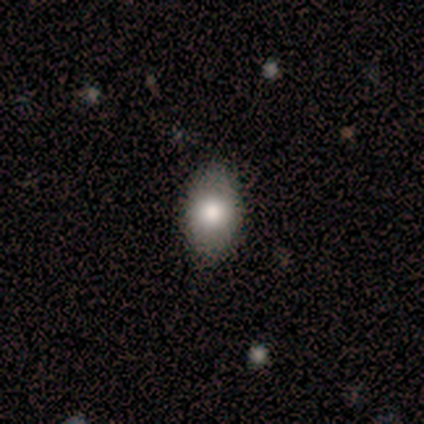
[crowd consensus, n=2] Smooth or featured? 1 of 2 (50%, tied with featured or disk) said smooth. How rounded? 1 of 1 (100%) said in between. Merging? 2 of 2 (100%) said none.